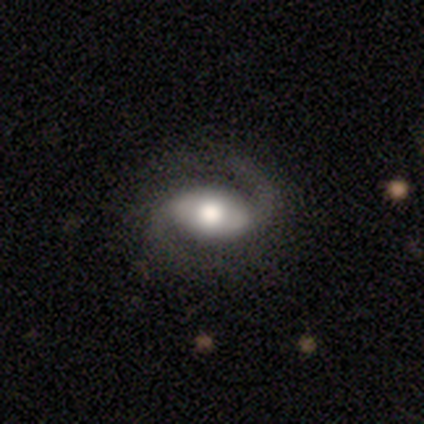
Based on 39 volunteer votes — A featured or disk galaxy (79%) with no bar (45%), 2 (97%) medium (62%) spiral arms (94%) and a large central bulge (48%). Merging: none (49%).